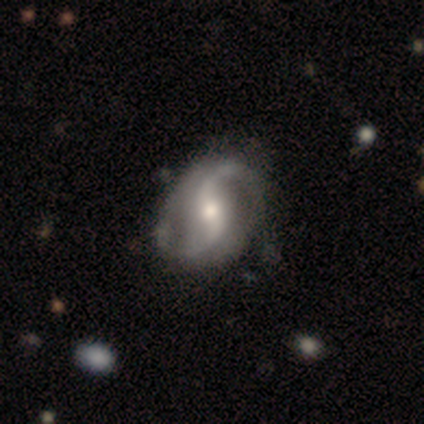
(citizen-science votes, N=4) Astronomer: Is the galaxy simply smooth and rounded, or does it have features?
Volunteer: featured or disk — 100%.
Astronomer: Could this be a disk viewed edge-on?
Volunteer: no — 100%.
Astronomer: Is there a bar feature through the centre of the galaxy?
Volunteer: weak — 50%, tied with no at 50%.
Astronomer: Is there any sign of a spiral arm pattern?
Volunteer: yes — 100%.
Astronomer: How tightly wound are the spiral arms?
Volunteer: loose — 100%.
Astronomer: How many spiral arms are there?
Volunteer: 2 — 75%.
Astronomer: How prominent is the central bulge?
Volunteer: moderate — 50%.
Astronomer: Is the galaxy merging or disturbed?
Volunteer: none — 75%.